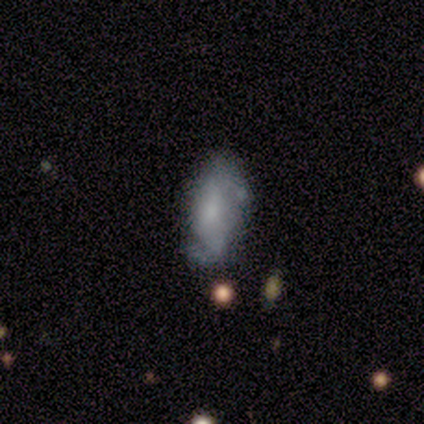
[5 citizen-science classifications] Smooth or featured? featured or disk (60%)
Edge-on disk? no (100%)
Bar? strong (33%, tied with weak and no)
Spiral arms? yes (100%)
Spiral winding? loose (67%)
Spiral arm count? 2 (67%)
Bulge size? large (33%, tied with moderate and small)
Merging? none (100%)